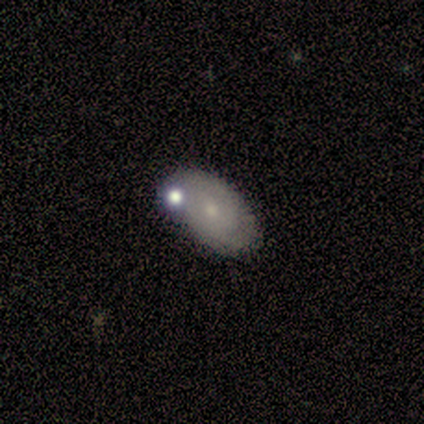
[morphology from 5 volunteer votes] Overall: featured or disk (60%; smooth 20%). Edge-on disk: no (100%). Bar: no (67%; weak 33%). Spiral arms: no (67%; yes 33%). Bulge size: small (67%; moderate 33%). Merging: merger (50%; none 25%).